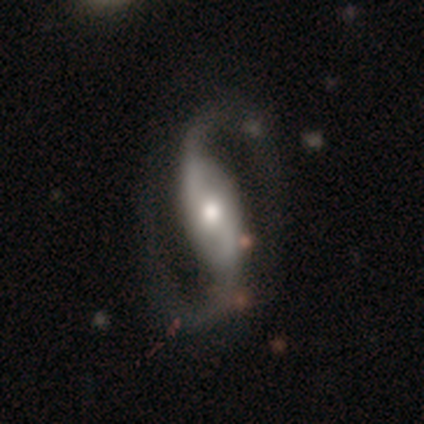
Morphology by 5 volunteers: smooth_or_featured: featured or disk (p=0.80) [alt: star or artifact p=0.20]
disk_edge_on: no (p=1.00)
bar: strong (p=0.75) [alt: no p=0.25]
has_spiral_arms: yes (p=1.00)
spiral_winding: medium (p=0.50) [tied with: loose p=0.50]
spiral_arm_count: 2 (p=1.00)
bulge_size: moderate (p=0.50) [alt: large p=0.25]
merging: none (p=0.75) [alt: minor disturbance p=0.25]